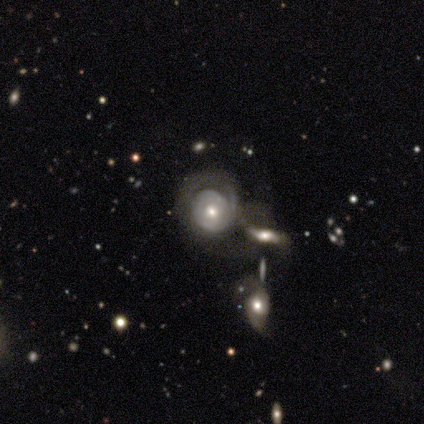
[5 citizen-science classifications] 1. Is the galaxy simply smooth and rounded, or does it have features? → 60% featured or disk, 40% smooth, 0% star or artifact.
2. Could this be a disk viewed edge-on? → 100% no, 0% yes.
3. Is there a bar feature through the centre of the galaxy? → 67% no, 33% strong, 0% weak.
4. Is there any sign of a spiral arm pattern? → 100% yes, 0% no.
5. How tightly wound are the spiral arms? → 100% tight, 0% medium, 0% loose.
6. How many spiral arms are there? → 33% 1 (tied), 33% 2 (tied), 33% can't tell (tied), 0% 3, 0% 4, 0% more than 4.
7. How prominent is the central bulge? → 67% moderate, 33% small, 0% dominant, 0% large, 0% none.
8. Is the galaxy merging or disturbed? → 60% minor disturbance, 40% merger, 0% none, 0% major disturbance.